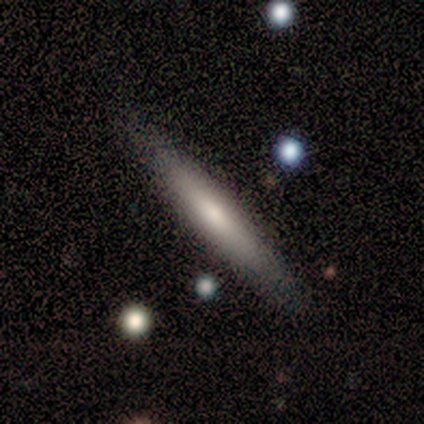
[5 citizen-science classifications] Smooth or featured?
  - smooth: 60% *
  - featured or disk: 20%
  - star or artifact: 20%
How rounded?
  - cigar-shaped: 100% *
  - round: 0%
  - in between: 0%
Merging?
  - none: 100% *
  - minor disturbance: 0%
  - major disturbance: 0%
  - merger: 0%